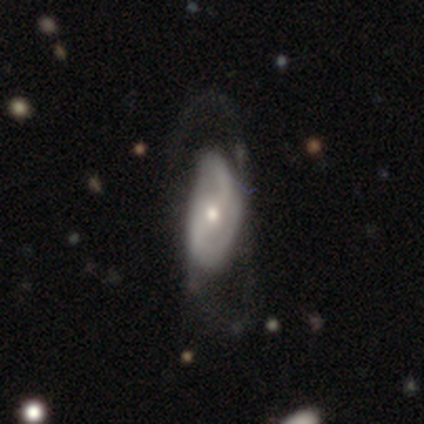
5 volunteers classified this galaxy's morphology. Smooth or featured? 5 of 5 (100%) said featured or disk. Edge-on disk? 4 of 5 (80%) said no. Bar? 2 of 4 (50%, tied with no) said weak. Spiral arms? 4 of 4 (100%) said yes. Spiral winding? 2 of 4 (50%) said medium. Spiral arm count? 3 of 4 (75%) said 2. Bulge size? 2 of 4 (50%, tied with small) said moderate. Merging? 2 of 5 (40%, tied with major disturbance) said none.